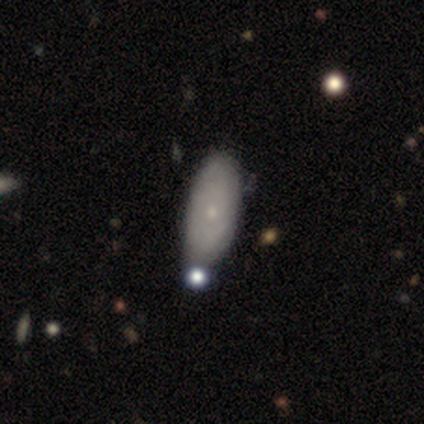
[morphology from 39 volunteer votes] smooth_or_featured: smooth (p=0.56) [alt: featured or disk p=0.36]
how_rounded: in between (p=0.86) [alt: cigar-shaped p=0.14]
merging: none (p=0.61) [alt: minor disturbance p=0.11]